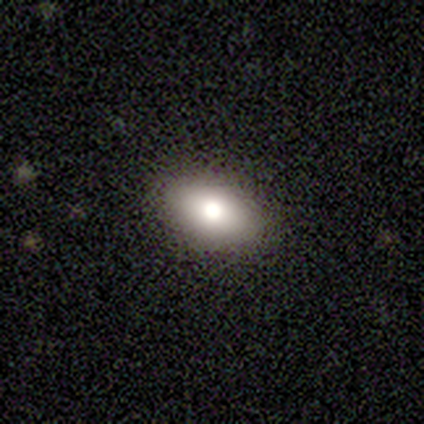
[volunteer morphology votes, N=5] Smooth or featured: smooth — 40% (tied with featured or disk — 40%)
How rounded: in between — 100%
Merging: none — 100%